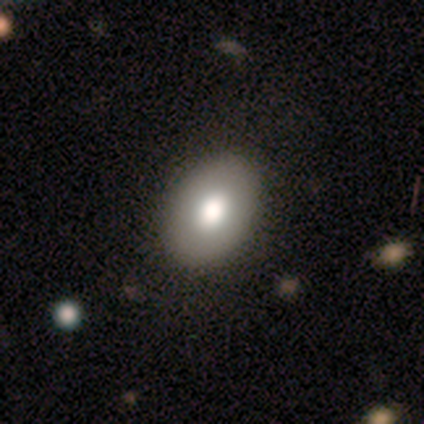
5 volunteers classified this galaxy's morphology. A smooth galaxy with no disk features (80%) that is in between round and cigar-shaped (75%).

Vote fractions:
- Smooth or featured? smooth: 80% / star or artifact: 20% / featured or disk: 0%
- How rounded? in between: 75% / round: 25% / cigar-shaped: 0%
- Merging? none: 75% / minor disturbance: 25% / major disturbance: 0% / merger: 0%